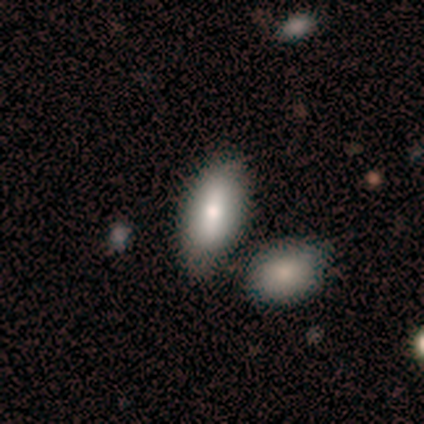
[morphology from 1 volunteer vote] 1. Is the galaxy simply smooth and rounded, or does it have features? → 100% smooth, 0% featured or disk, 0% star or artifact.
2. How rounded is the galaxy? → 100% in between, 0% round, 0% cigar-shaped.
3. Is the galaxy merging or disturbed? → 100% minor disturbance, 0% none, 0% major disturbance, 0% merger.